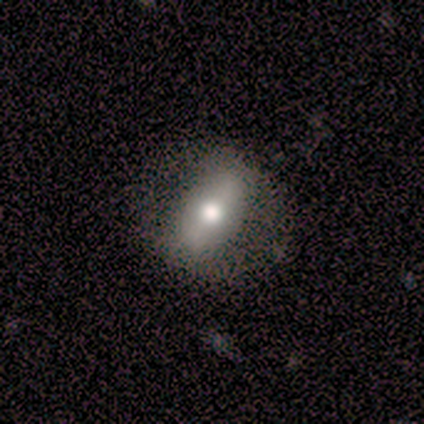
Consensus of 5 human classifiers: smooth 60%, featured or disk 20%, star or artifact 20%. Down the decision tree: how rounded — round (33%, tied with in between and cigar-shaped); merging — none (75%).